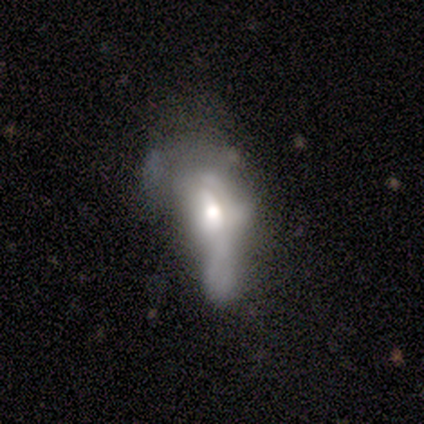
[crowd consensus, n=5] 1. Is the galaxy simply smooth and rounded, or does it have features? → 60% featured or disk, 40% smooth, 0% star or artifact.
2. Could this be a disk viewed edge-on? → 100% no, 0% yes.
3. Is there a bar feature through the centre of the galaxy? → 100% no, 0% strong, 0% weak.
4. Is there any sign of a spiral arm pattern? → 100% no, 0% yes.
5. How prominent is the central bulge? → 67% moderate, 33% large, 0% dominant, 0% small, 0% none.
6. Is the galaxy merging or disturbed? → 80% major disturbance, 20% minor disturbance, 0% none, 0% merger.